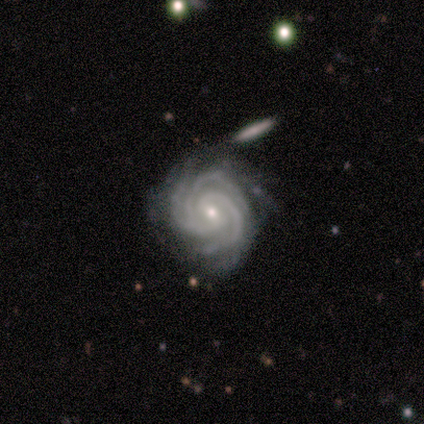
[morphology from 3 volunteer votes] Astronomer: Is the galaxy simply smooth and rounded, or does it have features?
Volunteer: featured or disk — 100%.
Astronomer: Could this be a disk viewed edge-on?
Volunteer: no — 100%.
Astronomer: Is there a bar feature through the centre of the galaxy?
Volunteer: weak — 67%.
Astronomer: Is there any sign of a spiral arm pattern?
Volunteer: yes — 100%.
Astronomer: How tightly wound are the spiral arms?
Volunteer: tight — 100%.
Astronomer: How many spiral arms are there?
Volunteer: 3 — 100%.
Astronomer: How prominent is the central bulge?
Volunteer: small — 67%.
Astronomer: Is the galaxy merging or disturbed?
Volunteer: none — 67%.